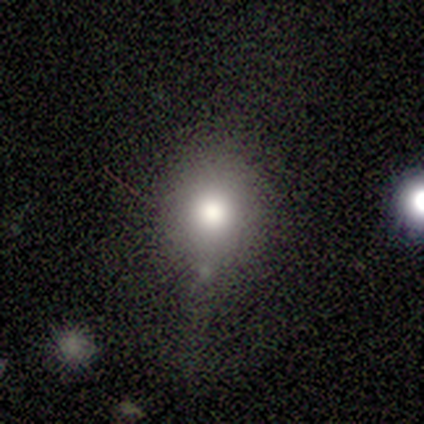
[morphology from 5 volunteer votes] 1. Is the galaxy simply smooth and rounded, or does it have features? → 100% smooth, 0% featured or disk, 0% star or artifact.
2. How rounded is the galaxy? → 80% round, 20% in between, 0% cigar-shaped.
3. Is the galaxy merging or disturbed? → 40% none (tied), 40% minor disturbance (tied), 20% major disturbance, 0% merger.